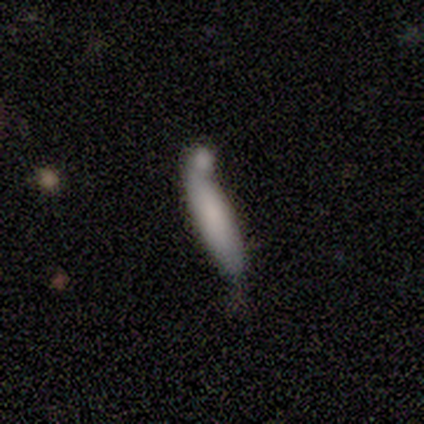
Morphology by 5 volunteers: type=featured or disk (60%); edge-on=yes (67%); edge-on bulge=none (50%, tied with rounded); merging=none (50%, tied with merger).